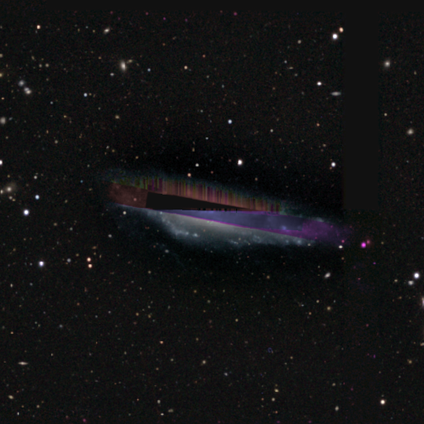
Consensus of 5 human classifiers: Volunteers were most divided on "smooth or featured": star or artifact: 80%, featured or disk: 20%, smooth: 0%.